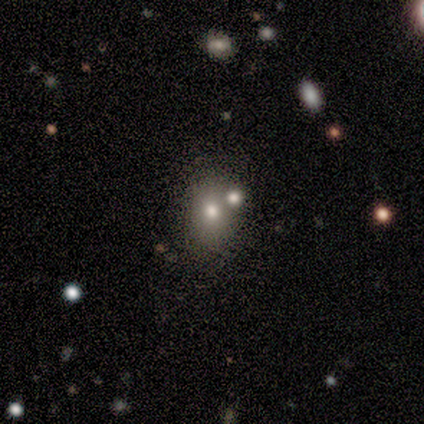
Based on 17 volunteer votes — Smooth or featured: smooth — 65% (featured or disk — 24%)
How rounded: in between — 55% (round — 45%)
Merging: none — 53% (minor disturbance — 27%)